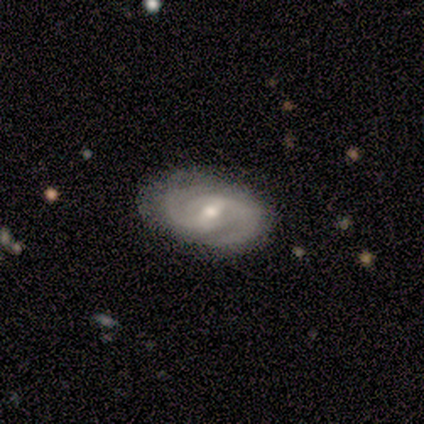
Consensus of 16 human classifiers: smooth-or-featured: featured or disk: 100% | smooth: 0% | star or artifact: 0%
  disk-edge-on: no: 100% | yes: 0%
    bar: weak: 62% | no: 31% | strong: 6%
    has-spiral-arms: yes: 94% | no: 6%
      spiral-winding: medium: 60% | tight: 27% | loose: 13%
      spiral-arm-count: 2: 87% | can't tell: 13% | 1: 0% | 3: 0% | 4: 0% | more than 4: 0%
    bulge-size: moderate: 69% | small: 25% | none: 6% | dominant: 0% | large: 0%
  merging: none: 94% | minor disturbance: 6% | major disturbance: 0% | merger: 0%